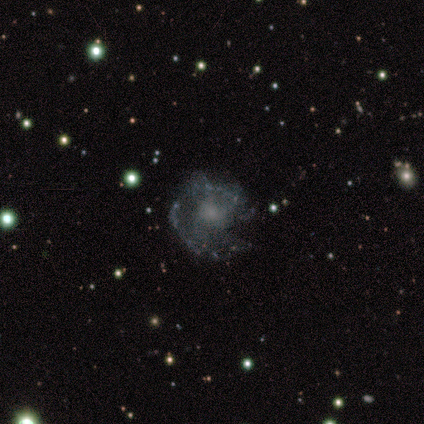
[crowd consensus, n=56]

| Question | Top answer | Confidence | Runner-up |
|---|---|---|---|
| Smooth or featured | featured or disk | 82% | smooth (14%) |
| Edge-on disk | no | 98% | yes (2%) |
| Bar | no | 98% | weak (2%) |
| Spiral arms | yes | 60% | no (40%) |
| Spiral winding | medium | 56% | loose (33%) |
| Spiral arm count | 1 | 33% | tied: can't tell (33%) |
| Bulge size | small | 38% | none (33%) |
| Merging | none | 54% | minor disturbance (24%) |